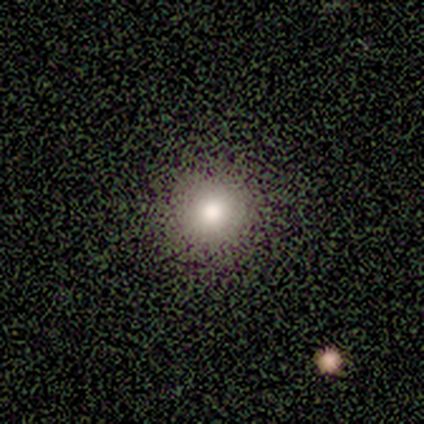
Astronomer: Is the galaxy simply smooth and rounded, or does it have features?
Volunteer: smooth — 60%.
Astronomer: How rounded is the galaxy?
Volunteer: round — 100%.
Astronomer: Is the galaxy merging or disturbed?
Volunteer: none — 100%.